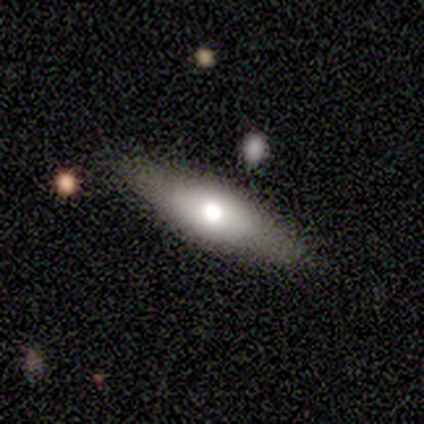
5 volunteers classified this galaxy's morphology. Smooth or featured: smooth — 40% (tied with featured or disk — 40%)
How rounded: cigar-shaped — 100%
Merging: none — 100%